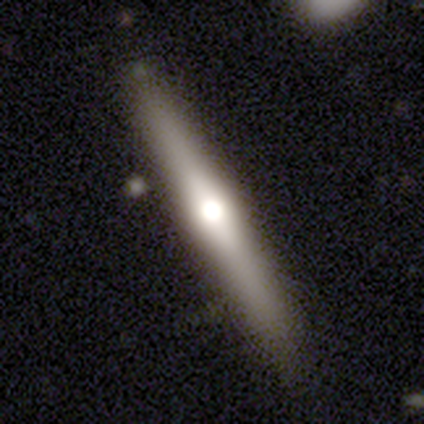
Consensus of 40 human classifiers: This appears to be a featured or disk galaxy (55%) viewed edge-on (86%) with a rounded central bulge (95%). Merging: none (97%).